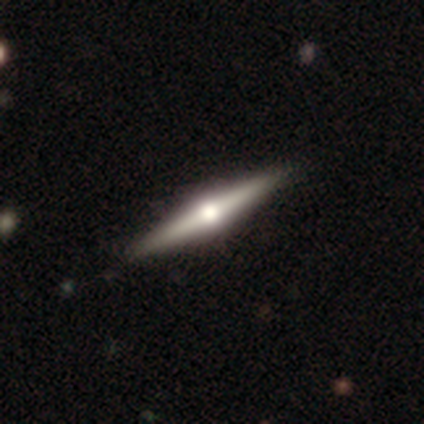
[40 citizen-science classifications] Smooth or featured? featured or disk (72%)
Edge-on disk? yes (100%)
Edge-on bulge? rounded (97%)
Merging? none (97%)